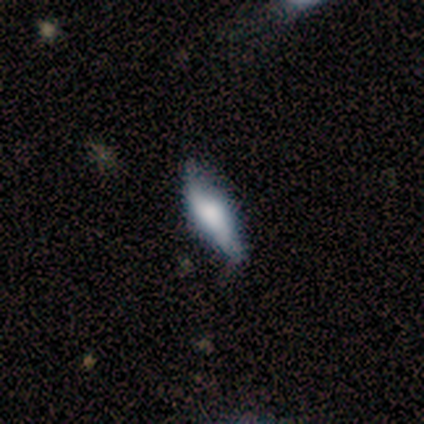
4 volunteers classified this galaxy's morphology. This is possibly a smooth galaxy (50%, tied with featured or disk). How rounded: possibly in between (50%, tied with cigar-shaped). Merging: likely none (75%).